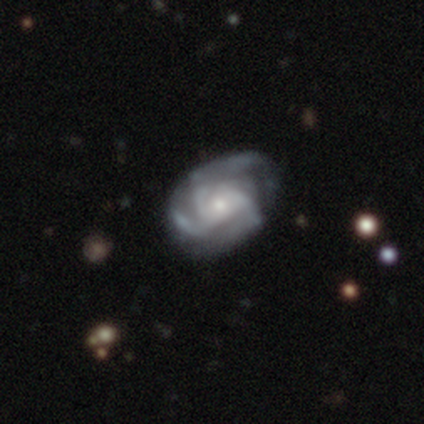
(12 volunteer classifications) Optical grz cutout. It shows a featured or disk galaxy (92%) with no bar (50%), 3 (90%) tight (60%) spiral arms (100%) and a small central bulge (50%). Merging: none (64%).